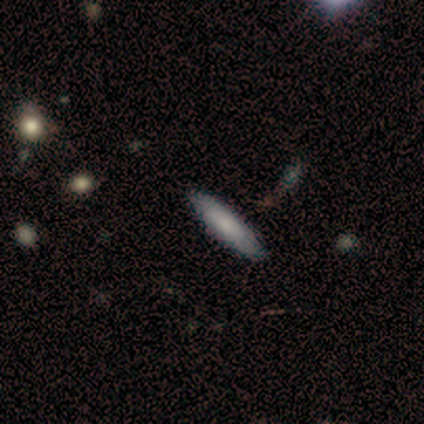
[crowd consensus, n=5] A smooth galaxy with no disk features (80%) that is in between round and cigar-shaped (50%, tied with cigar-shaped). Merging: none (100%).